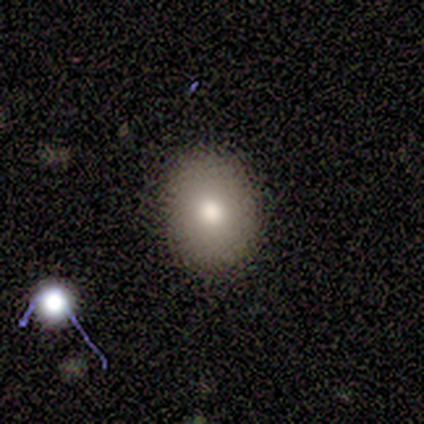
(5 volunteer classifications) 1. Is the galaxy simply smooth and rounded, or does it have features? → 80% smooth, 20% featured or disk, 0% star or artifact.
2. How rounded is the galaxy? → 50% round (tied), 50% in between (tied), 0% cigar-shaped.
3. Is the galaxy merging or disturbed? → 100% none, 0% minor disturbance, 0% major disturbance, 0% merger.